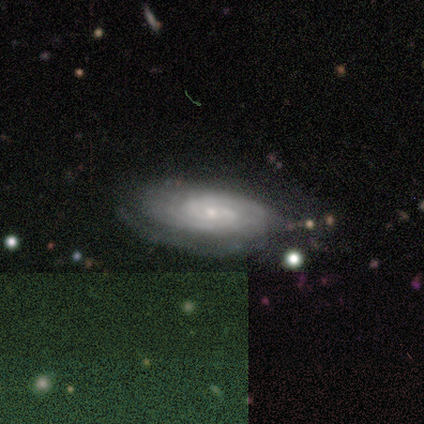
Q: Smooth or featured?
A: featured or disk (80%); runner-up: smooth (20%)
Q: Edge-on disk?
A: no (75%); runner-up: yes (25%)
Q: Bar?
A: no (67%); runner-up: weak (33%)
Q: Spiral arms?
A: yes (100%)
Q: Spiral winding?
A: tight (67%); runner-up: medium (33%)
Q: Spiral arm count?
A: 2 (67%); runner-up: 4 (33%)
Q: Bulge size?
A: small (67%); runner-up: moderate (33%)
Q: Merging?
A: none (80%); runner-up: minor disturbance (20%)